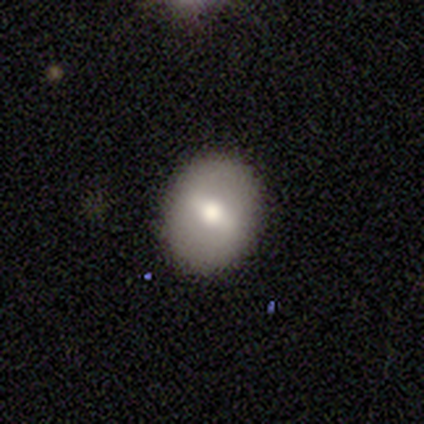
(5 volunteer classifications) A featured or disk galaxy (80%) with no bar (50%), no spiral arms (75%) and a moderate central bulge (100%).

Vote fractions:
- Smooth or featured? featured or disk: 80% / smooth: 20% / star or artifact: 0%
- Edge-on disk? no: 100% / yes: 0%
- Bar? no: 50% / strong: 25% / weak: 25%
- Spiral arms? no: 75% / yes: 25%
- Bulge size? moderate: 100% / dominant: 0% / large: 0% / small: 0% / none: 0%
- Merging? none: 60% / minor disturbance: 40% / major disturbance: 0% / merger: 0%